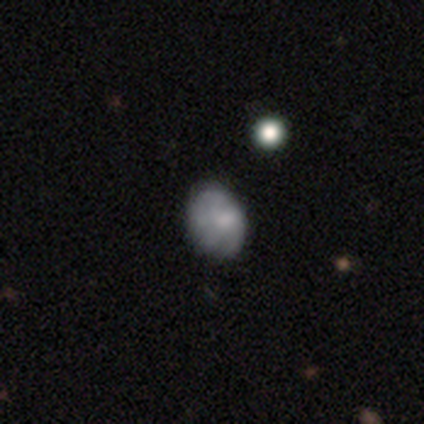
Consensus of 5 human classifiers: This appears to be a smooth galaxy with no disk features (40%, tied with featured or disk) that is round (100%). Merging: none (75%).